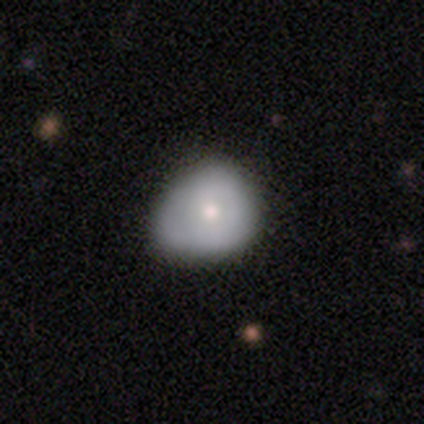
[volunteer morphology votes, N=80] Q: Smooth or featured?
A: smooth (65%); runner-up: featured or disk (30%)
Q: How rounded?
A: round (69%); runner-up: in between (31%)
Q: Merging?
A: minor disturbance (29%); runner-up: none (25%)